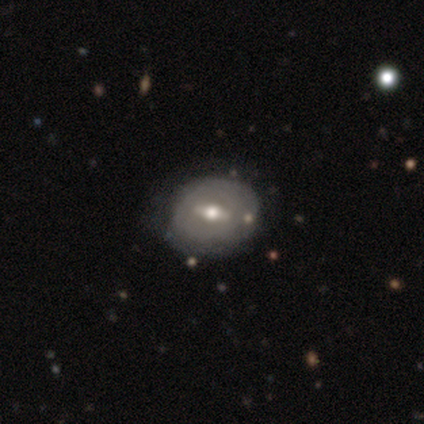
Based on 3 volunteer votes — Smooth or featured? smooth (67%)
How rounded? round (50%, tied with in between)
Merging? none (67%)